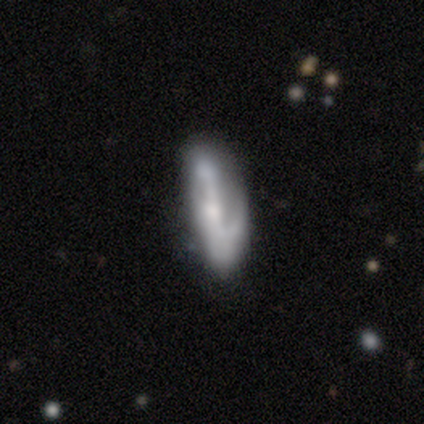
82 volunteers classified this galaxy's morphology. Overall: featured or disk (72%). Edge-on disk: no (83%). Bar: strong (45%; no 29%). Spiral arms: yes (82%). Spiral arm count: 2 (55%; 1 35%). Spiral winding: loose (52%; medium 35%). Bulge size: small (45%; moderate 33%). Merging: none (57%; major disturbance 21%).